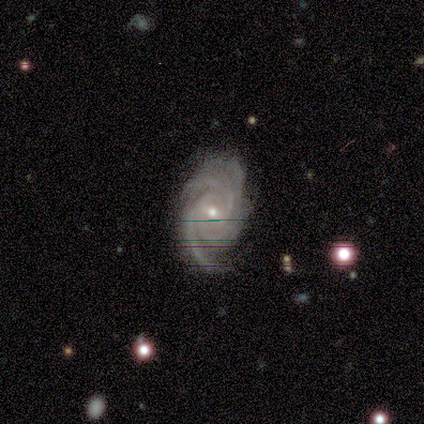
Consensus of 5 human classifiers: Smooth or featured? featured or disk (100%)
Edge-on disk? no (100%)
Bar? weak (60%)
Spiral arms? yes (100%)
Spiral winding? tight (100%)
Spiral arm count? 4 (80%)
Bulge size? small (60%)
Merging? none (40%, tied with minor disturbance)